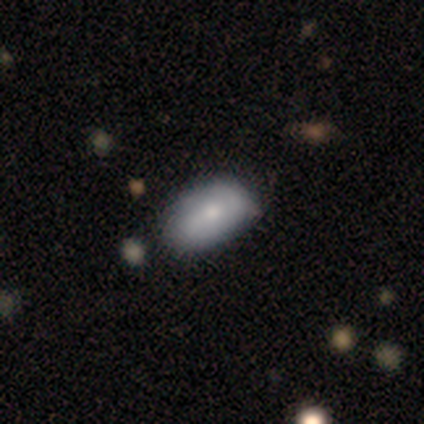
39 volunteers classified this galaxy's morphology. smooth-or-featured: smooth: 77% | featured or disk: 21% | star or artifact: 3%
  how-rounded: in between: 97% | round: 3% | cigar-shaped: 0%
  merging: none: 55% | minor disturbance: 21% | major disturbance: 0% | merger: 0%